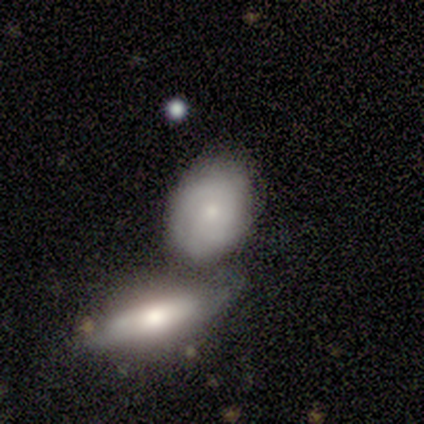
smooth_or_featured: smooth (p=0.60) [alt: featured or disk p=0.40]
how_rounded: in between (p=0.67) [alt: round p=0.33]
merging: none (p=0.60) [alt: merger p=0.40]